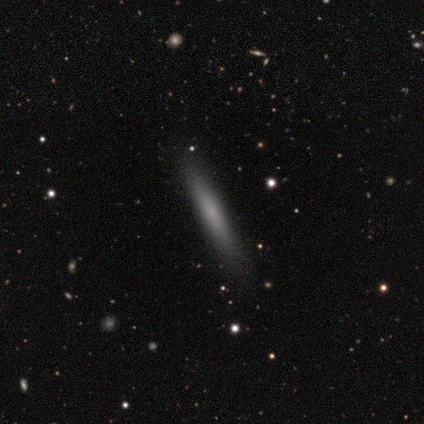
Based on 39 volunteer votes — Smooth or featured: smooth — 77% (featured or disk — 18%)
How rounded: cigar-shaped — 100%
Merging: none — 92% (minor disturbance — 5%)